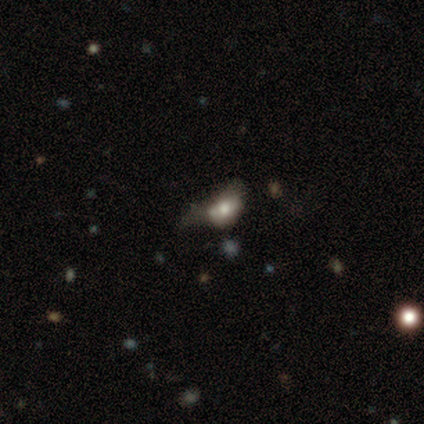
smooth 40% (tied), featured or disk 40% (tied), star or artifact 20%. Down the decision tree: how rounded — in between (100%); merging — major disturbance (75%).